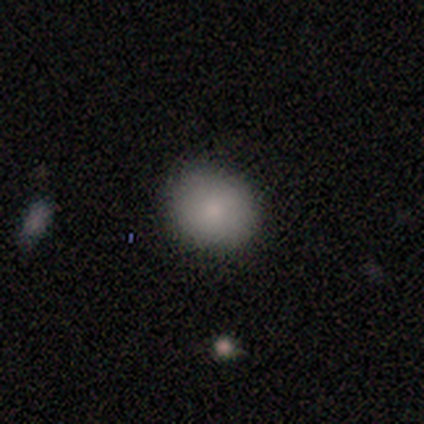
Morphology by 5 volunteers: smooth_or_featured: smooth (p=1.00)
how_rounded: round (p=0.80) [alt: in between p=0.20]
merging: none (p=1.00)